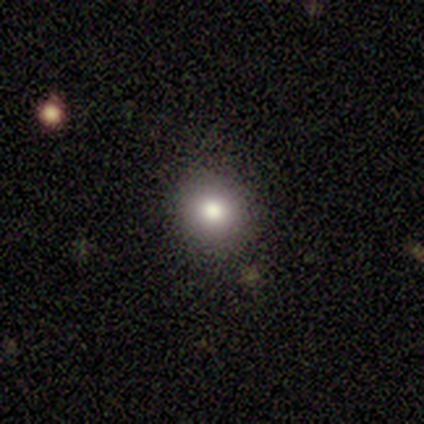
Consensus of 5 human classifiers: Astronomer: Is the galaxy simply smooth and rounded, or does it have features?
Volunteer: smooth — 100%.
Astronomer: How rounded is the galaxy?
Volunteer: round — 100%.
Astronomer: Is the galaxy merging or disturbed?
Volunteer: none — 60%.